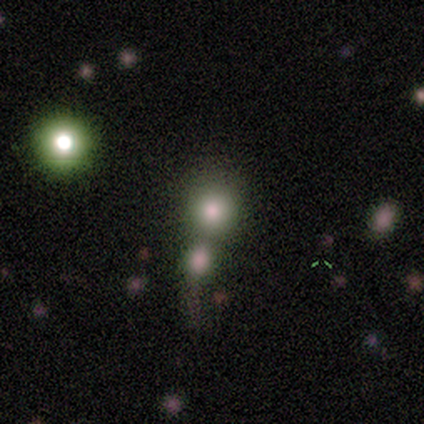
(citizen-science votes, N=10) This appears to be a smooth galaxy with no disk features (70%) that is round (100%). Merging: none (62%).